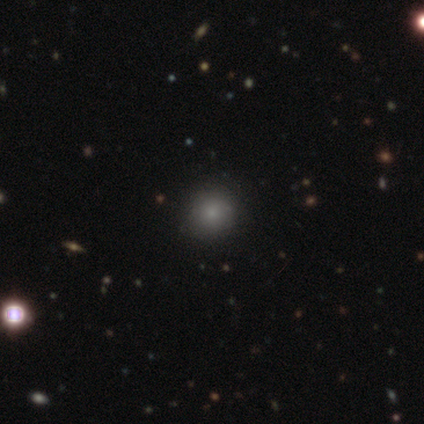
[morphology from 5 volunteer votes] Q: Smooth or featured?
A: smooth (80%); runner-up: star or artifact (20%)
Q: How rounded?
A: round (100%)
Q: Merging?
A: none (100%)